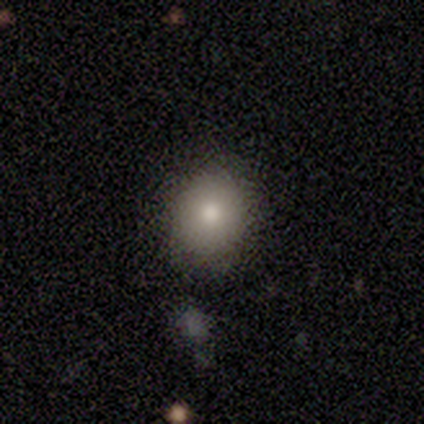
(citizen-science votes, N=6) Smooth or featured? smooth (50%)
How rounded? round (100%)
Merging? none (60%)